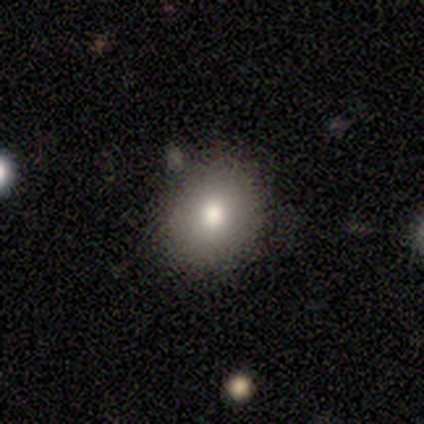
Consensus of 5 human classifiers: Smooth or featured: smooth — 60% (featured or disk — 20%)
How rounded: round — 67% (in between — 33%)
Merging: none — 50% (tied with minor disturbance — 50%)